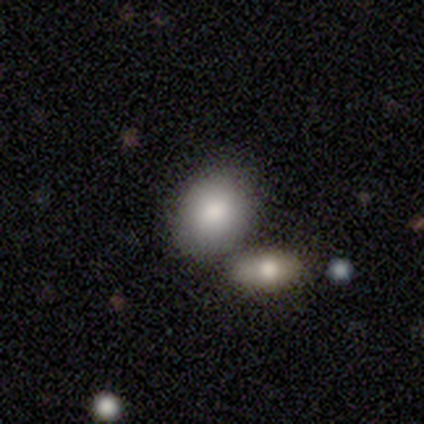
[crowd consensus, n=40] Smooth or featured? 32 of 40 (80%) said smooth. How rounded? 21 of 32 (66%) said in between. Merging? 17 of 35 (49%) said none.